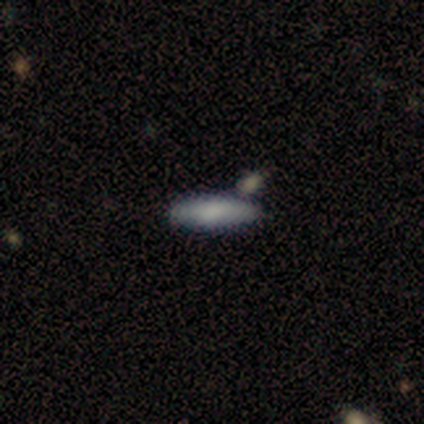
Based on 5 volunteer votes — Overall: smooth (80%). How rounded: cigar-shaped (100%). Merging: none (60%; minor disturbance 20%).